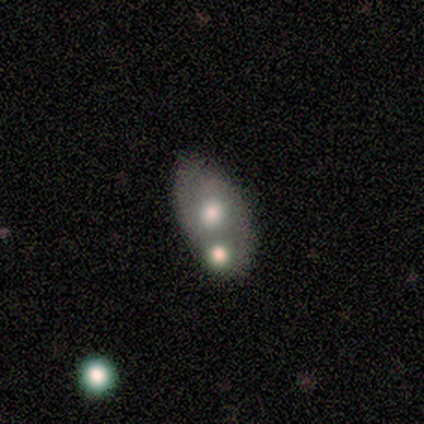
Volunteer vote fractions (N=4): Smooth or featured: smooth — 50% (tied with featured or disk — 50%)
How rounded: in between — 100%
Merging: none — 75% (merger — 25%)